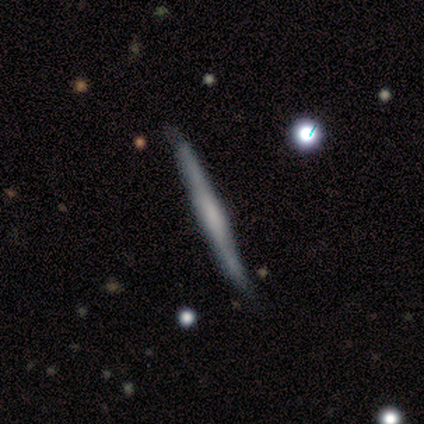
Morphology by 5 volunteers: smooth 80%, featured or disk 20%, star or artifact 0%. Down the decision tree: how rounded — cigar-shaped (100%); merging — none (100%).